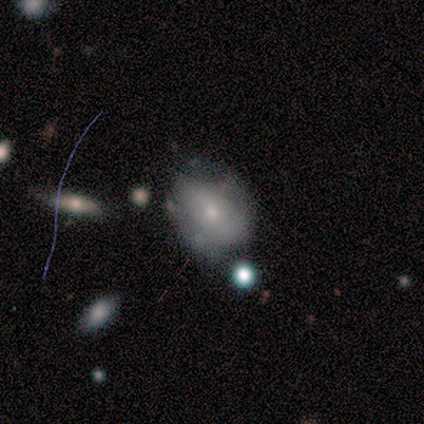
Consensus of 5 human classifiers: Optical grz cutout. It shows a smooth galaxy with no disk features (40%, tied with featured or disk) that is round (50%, tied with in between). Merging: none (75%).